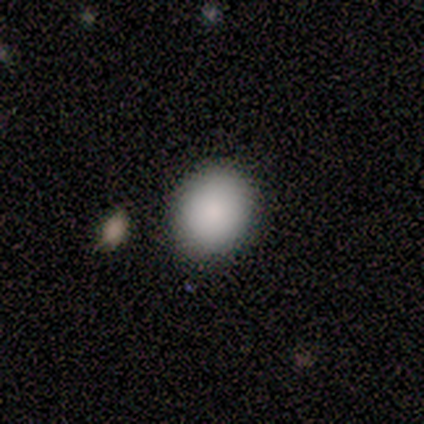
A smooth galaxy with no disk features (100%) that is round (80%).

Vote fractions:
- Smooth or featured? smooth: 100% / featured or disk: 0% / star or artifact: 0%
- How rounded? round: 80% / in between: 20% / cigar-shaped: 0%
- Merging? none: 100% / minor disturbance: 0% / major disturbance: 0% / merger: 0%